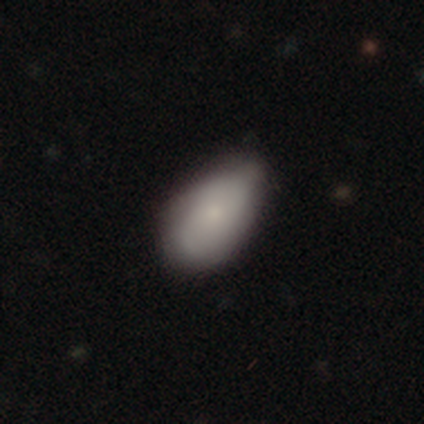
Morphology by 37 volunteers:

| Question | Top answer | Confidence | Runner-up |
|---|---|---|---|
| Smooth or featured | smooth | 76% | featured or disk (19%) |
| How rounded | in between | 93% | round (7%) |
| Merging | minor disturbance | 57% | none (40%) |